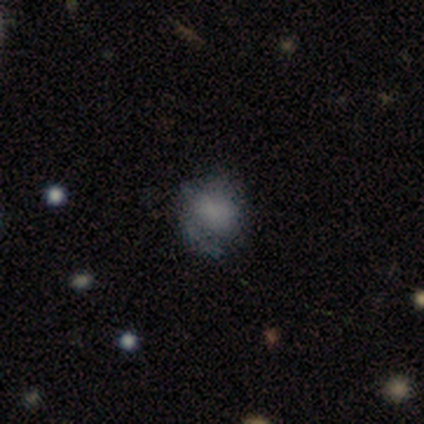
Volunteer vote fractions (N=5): This appears to be a featured or disk galaxy (60%) with no bar (100%), 1 (100%) tight (100%) spiral arms (50%, tied with no) and no central bulge (100%). Merging: minor disturbance (100%).